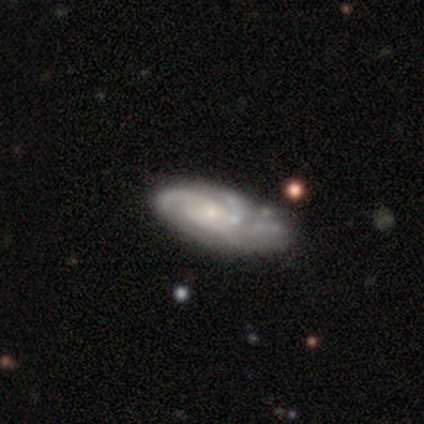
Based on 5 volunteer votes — Smooth or featured? 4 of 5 (80%) said featured or disk. Edge-on disk? 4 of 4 (100%) said no. Bar? 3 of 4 (75%) said no. Spiral arms? 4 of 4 (100%) said yes. Spiral winding? 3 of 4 (75%) said tight. Spiral arm count? 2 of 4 (50%) said 3. Bulge size? 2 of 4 (50%, tied with small) said moderate. Merging? 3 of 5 (60%) said none.